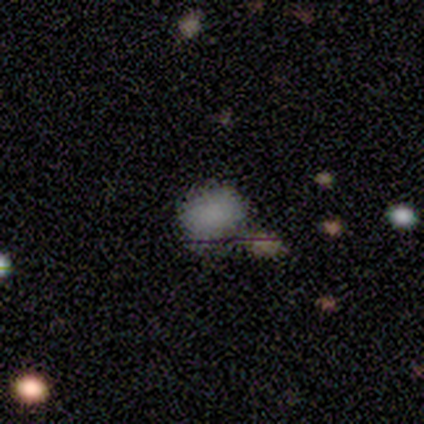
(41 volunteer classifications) smooth_or_featured: smooth (p=0.68) [alt: star or artifact p=0.24]
how_rounded: round (p=0.46) [tied with: in between p=0.46]
merging: none (p=0.55) [alt: minor disturbance p=0.19]